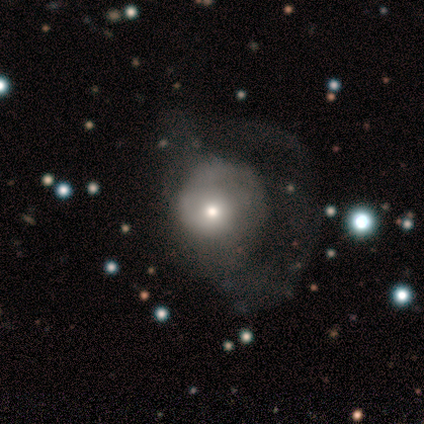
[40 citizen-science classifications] Smooth or featured? featured or disk (52%)
Edge-on disk? no (95%)
Bar? no (75%)
Spiral arms? no (55%)
Bulge size? moderate (45%)
Merging? major disturbance (60%)